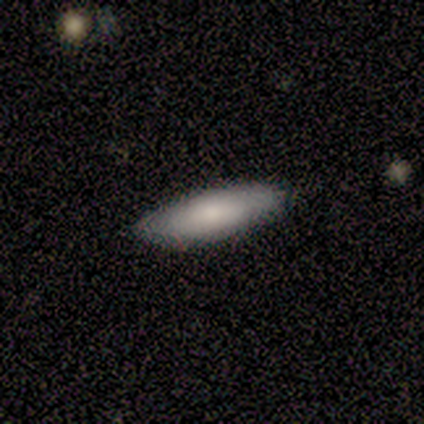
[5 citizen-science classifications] Smooth or featured? smooth (100%)
How rounded? in between (60%)
Merging? none (60%)